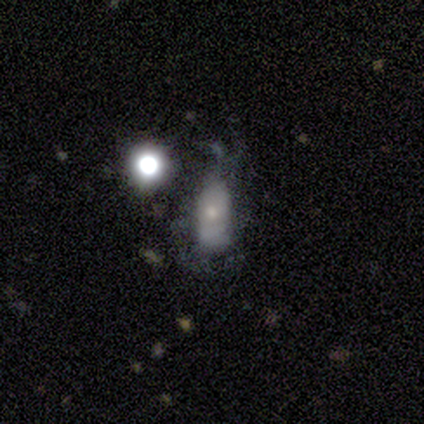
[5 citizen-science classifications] Volunteers were most divided on "smooth or featured": featured or disk: 60%, smooth: 40%, star or artifact: 0%. More confident: edge-on disk — no (100%); bar — no (100%); spiral arms — no (100%); bulge size — small (67%); merging — major disturbance (60%).